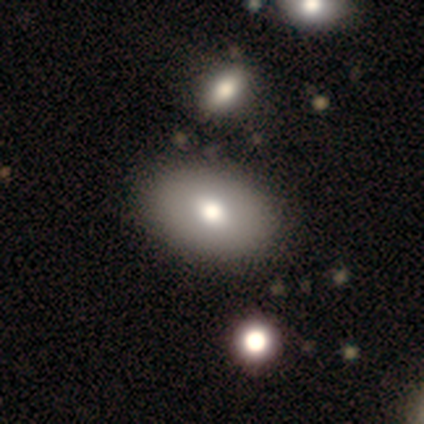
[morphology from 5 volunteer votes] Q: Smooth or featured?
A: smooth (60%); runner-up: featured or disk (40%)
Q: How rounded?
A: in between (100%)
Q: Merging?
A: none (100%)